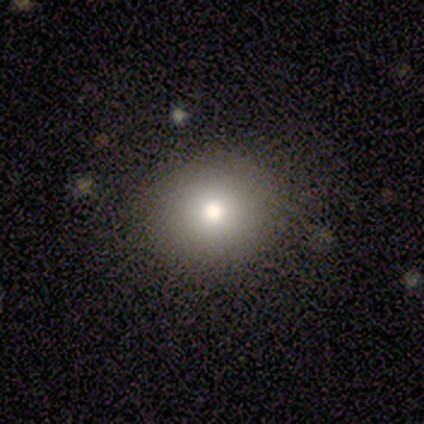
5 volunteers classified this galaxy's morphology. A smooth galaxy with no disk features (100%) that is round (80%). Merging: none (100%).